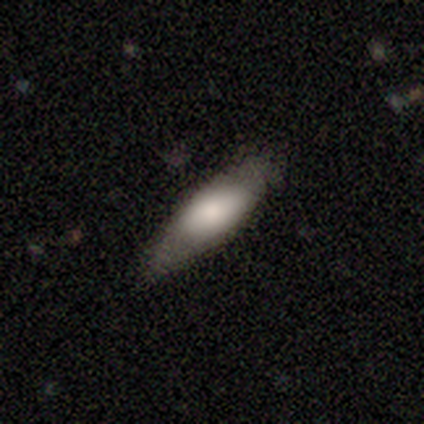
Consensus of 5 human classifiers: This appears to be a smooth galaxy with no disk features (80%) that is in between round and cigar-shaped (75%). Merging: none (100%).